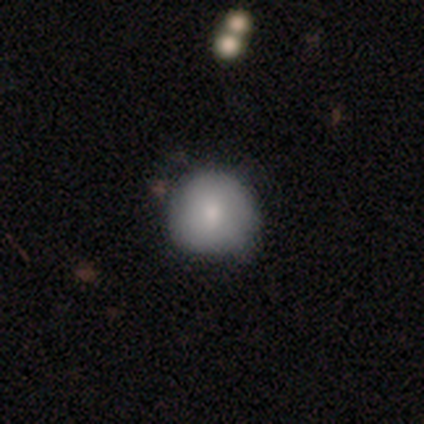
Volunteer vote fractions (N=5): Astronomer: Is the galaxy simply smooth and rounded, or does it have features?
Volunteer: featured or disk — 60% (runner-up: smooth, 40%).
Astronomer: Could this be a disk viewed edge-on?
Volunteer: no — 100%.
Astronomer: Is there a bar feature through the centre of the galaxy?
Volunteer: no — 100%.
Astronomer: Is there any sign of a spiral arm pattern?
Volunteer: no — 67%.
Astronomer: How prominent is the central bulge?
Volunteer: moderate — 100%.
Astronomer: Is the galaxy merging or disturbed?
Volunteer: none — 60% (runner-up: minor disturbance, 40%).